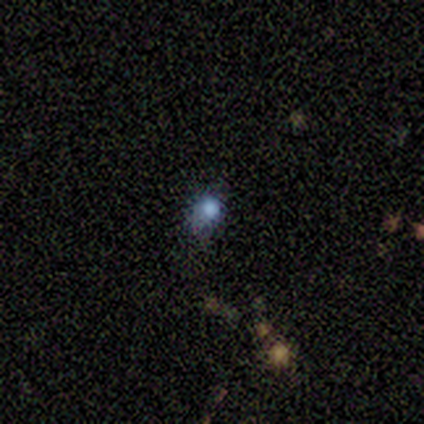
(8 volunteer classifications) Smooth or featured? smooth (75%)
How rounded? round (67%)
Merging? minor disturbance (86%)